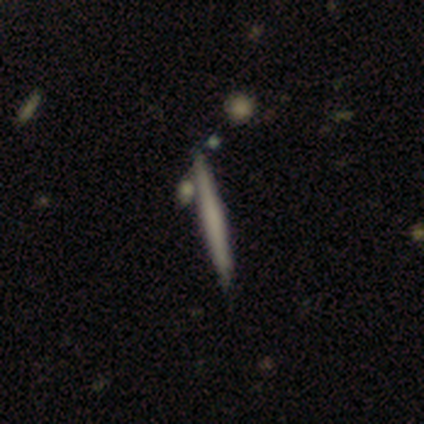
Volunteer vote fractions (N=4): smooth_or_featured: smooth (p=0.50) [tied with: featured or disk p=0.50]
how_rounded: cigar-shaped (p=1.00)
merging: none (p=1.00)